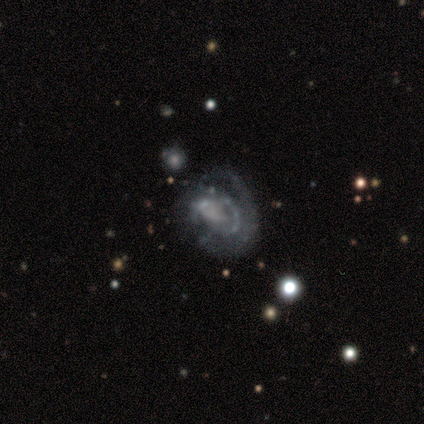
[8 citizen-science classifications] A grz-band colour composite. It shows a featured or disk galaxy (62%) with a weak bar (40%, tied with no), tight (33%, tied with medium and loose) spiral arms (60%) and a moderate central bulge (40%, tied with none). Merging: major disturbance (57%).